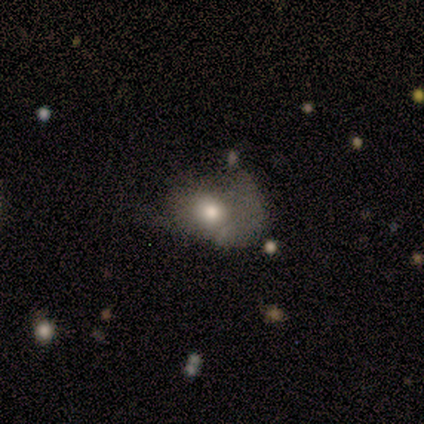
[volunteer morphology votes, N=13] Q: Smooth or featured?
A: smooth (62%); runner-up: featured or disk (31%)
Q: How rounded?
A: in between (75%); runner-up: round (25%)
Q: Merging?
A: minor disturbance (42%); tied with: major disturbance (42%)